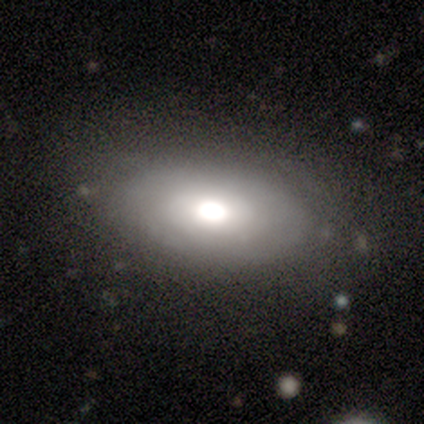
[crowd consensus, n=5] This appears to be a smooth galaxy with no disk features (60%) that is in between round and cigar-shaped (67%). Merging: none (50%, tied with minor disturbance).